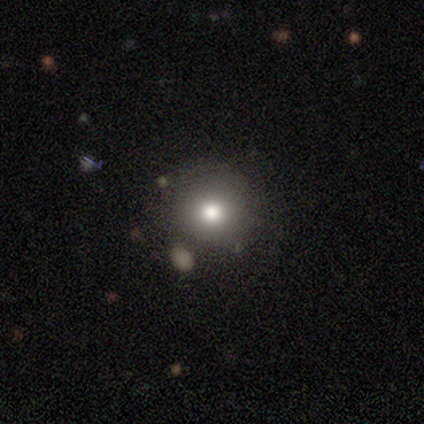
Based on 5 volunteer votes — Morphology: type=smooth (60%); roundness=round (100%); merging=none (100%).